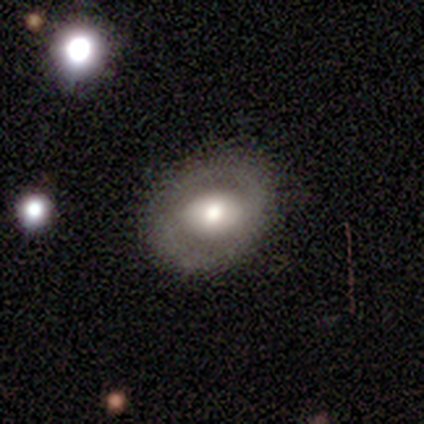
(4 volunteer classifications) This appears to be a smooth galaxy with no disk features (50%, tied with featured or disk) that is round (100%). Merging: none (75%).